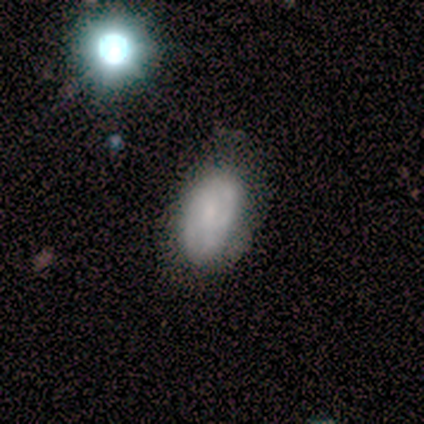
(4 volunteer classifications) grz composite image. It shows a smooth galaxy with no disk features (50%, tied with featured or disk) that is in between round and cigar-shaped (100%). Merging: none (50%, tied with minor disturbance).